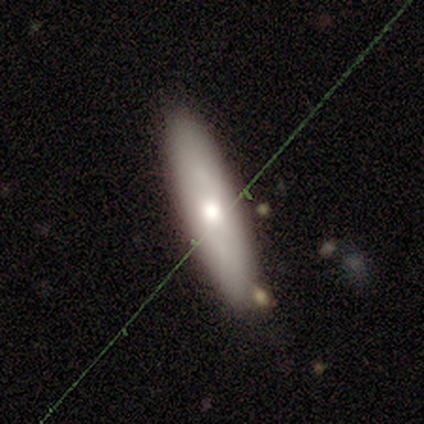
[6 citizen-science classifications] This appears to be a smooth galaxy with no disk features (50%, tied with featured or disk) that is cigar-shaped (100%). Merging: none (67%).